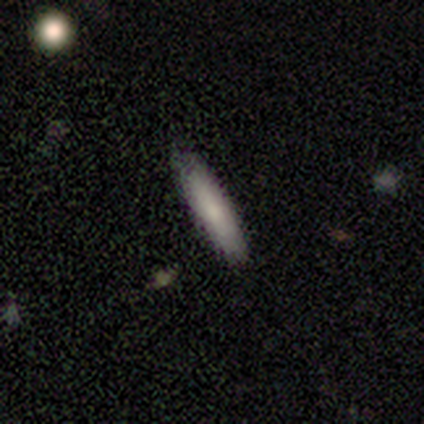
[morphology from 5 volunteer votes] This is clearly a smooth galaxy (80%). How rounded: likely cigar-shaped (75%). Merging: clearly none (80%).